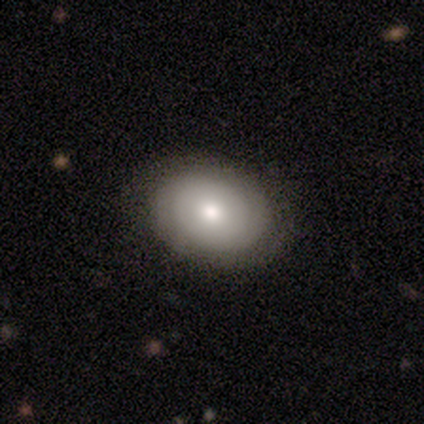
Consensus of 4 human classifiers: Smooth or featured: smooth — 50% (featured or disk — 25%)
How rounded: round — 50% (tied with in between — 50%)
Merging: none — 100%